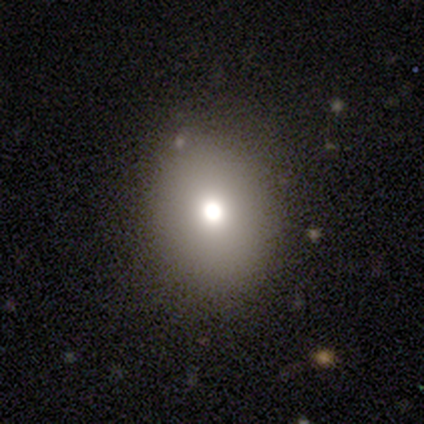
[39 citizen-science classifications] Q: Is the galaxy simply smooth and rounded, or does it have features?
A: smooth — 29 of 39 (74%).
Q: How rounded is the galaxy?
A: round — 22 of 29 (76%).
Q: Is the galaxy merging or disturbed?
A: none — 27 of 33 (82%).